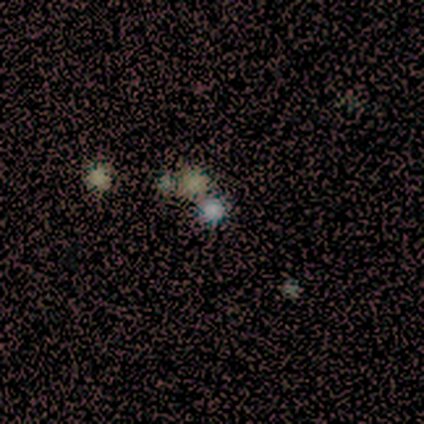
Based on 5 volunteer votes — Smooth or featured? smooth (60%)
How rounded? round (67%)
Merging? none (67%)